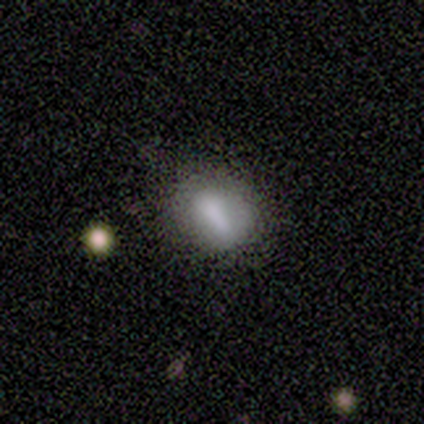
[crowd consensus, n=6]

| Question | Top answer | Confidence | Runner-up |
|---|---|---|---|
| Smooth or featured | smooth | 67% | featured or disk (33%) |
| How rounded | in between | 75% | cigar-shaped (25%) |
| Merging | none | 33% | tied: minor disturbance (33%), major disturbance (33%) |